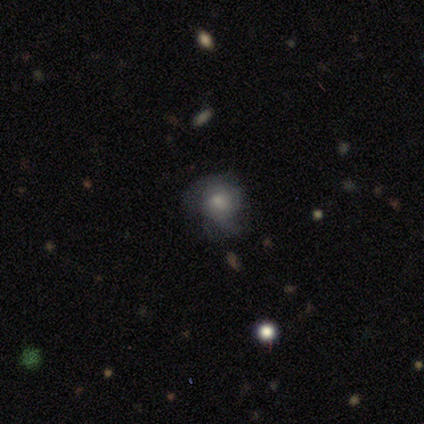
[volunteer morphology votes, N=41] smooth_or_featured: featured or disk (p=0.46) [alt: smooth p=0.41]
disk_edge_on: no (p=1.00)
bar: no (p=0.79) [alt: weak p=0.16]
has_spiral_arms: yes (p=0.74) [alt: no p=0.26]
spiral_winding: loose (p=0.43) [alt: tight p=0.36]
spiral_arm_count: 2 (p=0.43) [tied with: can't tell p=0.43]
bulge_size: moderate (p=0.58) [alt: small p=0.21]
merging: none (p=0.47) [alt: minor disturbance p=0.31]